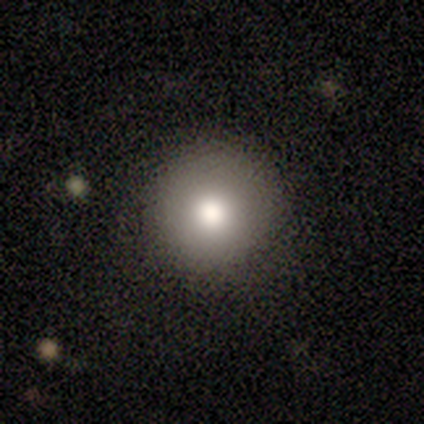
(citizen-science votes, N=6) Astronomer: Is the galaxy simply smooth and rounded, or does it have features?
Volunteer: smooth — 83%.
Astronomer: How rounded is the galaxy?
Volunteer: round — 100%.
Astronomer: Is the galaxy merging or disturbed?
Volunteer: none — 83%.